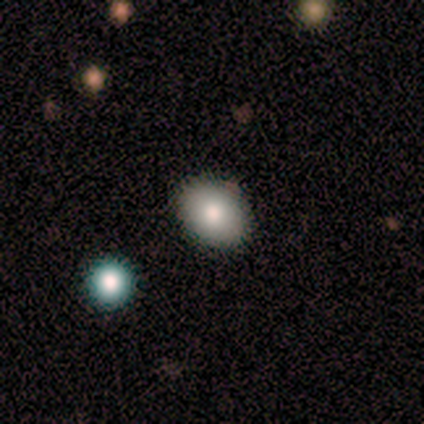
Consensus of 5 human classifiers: smooth 100%, featured or disk 0%, star or artifact 0%. Down the decision tree: how rounded — round (60%); merging — none (80%).